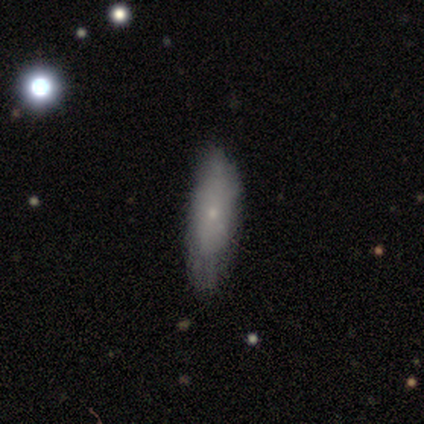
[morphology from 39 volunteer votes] Volunteers were most divided on "how rounded": cigar-shaped: 55%, in between: 45%, round: 0%. More confident: merging — none (69%); smooth or featured — smooth (56%).